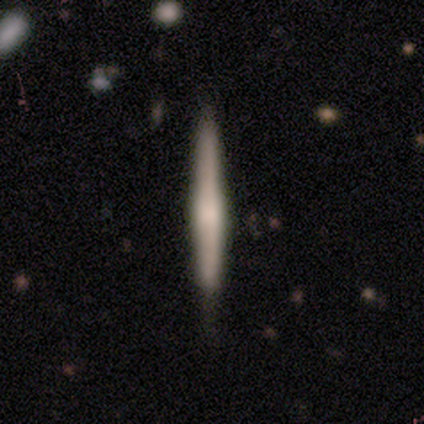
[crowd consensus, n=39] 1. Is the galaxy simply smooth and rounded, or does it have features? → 51% featured or disk, 38% smooth, 10% star or artifact.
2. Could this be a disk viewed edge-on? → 95% yes, 5% no.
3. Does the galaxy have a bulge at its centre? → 63% rounded, 32% boxy, 5% none.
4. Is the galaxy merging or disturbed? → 74% none, 23% minor disturbance, 3% major disturbance, 0% merger.